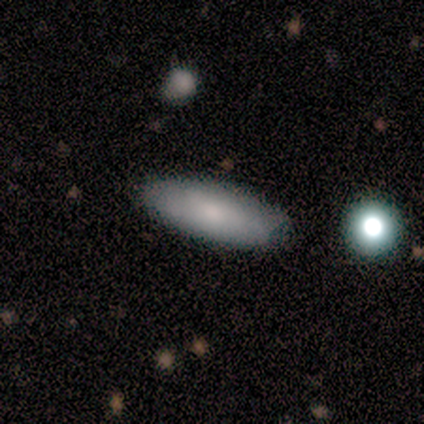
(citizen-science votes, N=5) This is likely a featured or disk galaxy (60%). It is clearly not viewed edge-on (100%). Bar: clearly no (100%). Spiral arm pattern: likely yes (67%). Spiral arm count: possibly 2 (50%, tied with can't tell). Spiral winding: clearly loose (100%). Central bulge: marginally moderate (33%, tied with small and none). Merging: clearly none (80%).